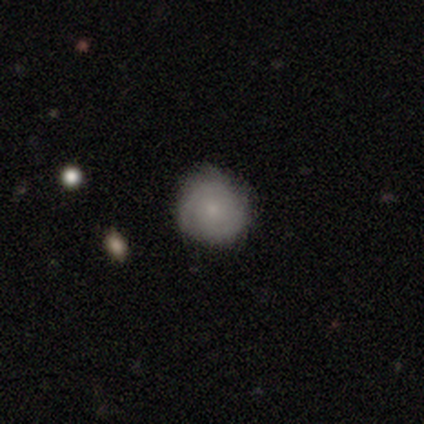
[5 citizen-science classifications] A featured or disk galaxy (60%) with no bar (100%), tight (67%) spiral arms (100%) and a small central bulge (100%).

Vote fractions:
- Smooth or featured? featured or disk: 60% / smooth: 40% / star or artifact: 0%
- Edge-on disk? no: 100% / yes: 0%
- Bar? no: 100% / strong: 0% / weak: 0%
- Spiral arms? yes: 100% / no: 0%
- Spiral winding? tight: 67% / medium: 33% / loose: 0%
- Spiral arm count? can't tell: 100% / 1: 0% / 2: 0% / 3: 0% / 4: 0% / more than 4: 0%
- Bulge size? small: 100% / dominant: 0% / large: 0% / moderate: 0% / none: 0%
- Merging? none: 100% / minor disturbance: 0% / major disturbance: 0% / merger: 0%